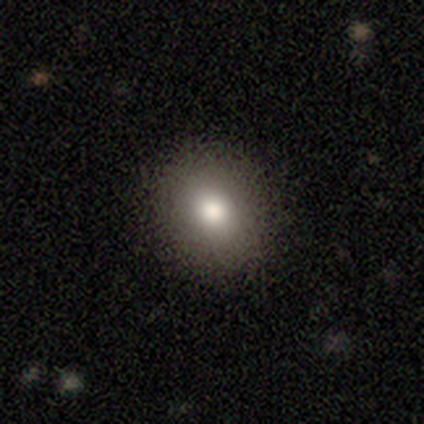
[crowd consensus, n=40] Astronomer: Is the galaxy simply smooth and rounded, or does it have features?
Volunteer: smooth — 80%.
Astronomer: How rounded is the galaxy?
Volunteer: round — 75%.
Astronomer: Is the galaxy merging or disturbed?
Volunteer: none — 92%.